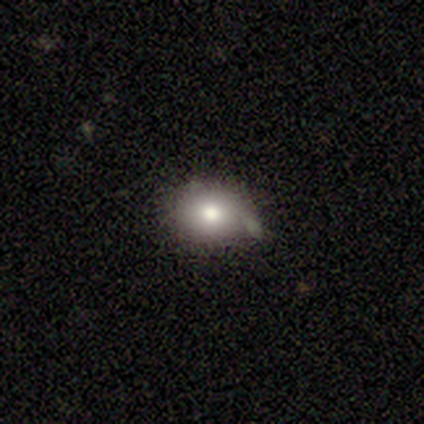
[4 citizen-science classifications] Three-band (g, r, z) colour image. It shows a smooth galaxy with no disk features (100%) that is round (50%, tied with in between). Merging: none (75%).